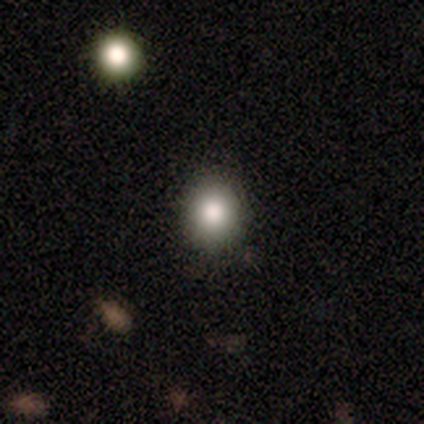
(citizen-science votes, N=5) Smooth or featured: smooth — 80% (star or artifact — 20%)
How rounded: round — 75% (in between — 25%)
Merging: none — 100%